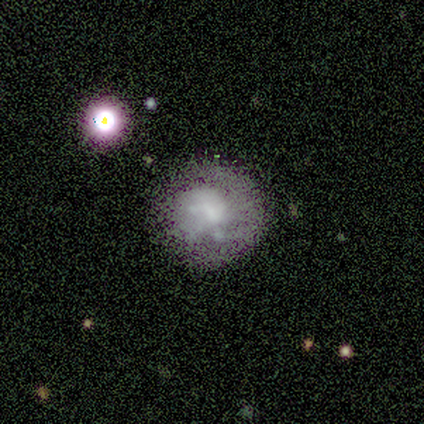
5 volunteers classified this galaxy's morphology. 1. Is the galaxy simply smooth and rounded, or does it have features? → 40% smooth (tied), 40% featured or disk (tied), 20% star or artifact.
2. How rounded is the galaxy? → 100% round, 0% in between, 0% cigar-shaped.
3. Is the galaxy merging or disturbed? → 100% none, 0% minor disturbance, 0% major disturbance, 0% merger.